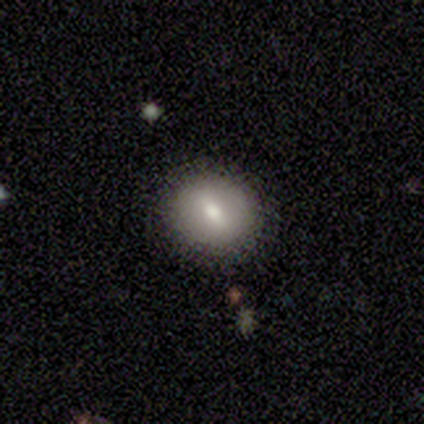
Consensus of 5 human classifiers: smooth 100%, featured or disk 0%, star or artifact 0%. Down the decision tree: how rounded — round (80%); merging — none (100%).